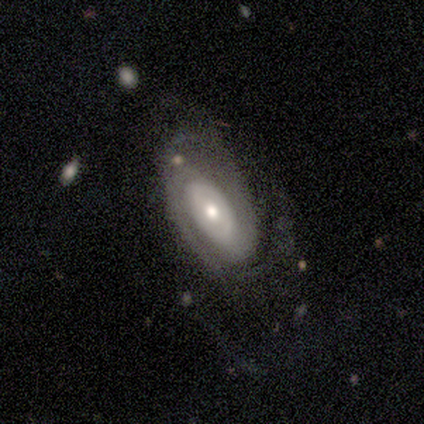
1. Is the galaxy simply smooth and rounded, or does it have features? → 80% featured or disk, 20% smooth, 0% star or artifact.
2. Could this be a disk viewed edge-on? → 100% no, 0% yes.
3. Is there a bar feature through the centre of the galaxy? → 50% no, 25% strong, 25% weak.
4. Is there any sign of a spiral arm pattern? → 100% yes, 0% no.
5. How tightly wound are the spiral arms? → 75% tight, 25% medium, 0% loose.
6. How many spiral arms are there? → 75% 2, 25% can't tell, 0% 1, 0% 3, 0% 4, 0% more than 4.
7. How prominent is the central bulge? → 75% moderate, 25% small, 0% dominant, 0% large, 0% none.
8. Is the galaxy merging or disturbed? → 40% none (tied), 40% major disturbance (tied), 20% minor disturbance, 0% merger.